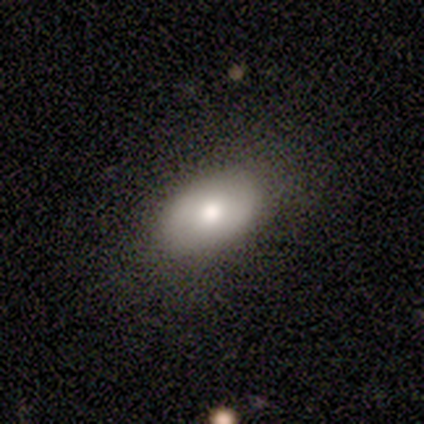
Consensus on every question: smooth or featured — smooth (100%); how rounded — in between (100%); merging — none (100%).